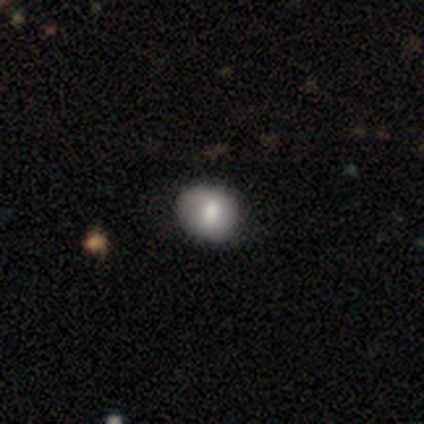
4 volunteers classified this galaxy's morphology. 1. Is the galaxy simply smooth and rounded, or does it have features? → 75% smooth, 25% star or artifact, 0% featured or disk.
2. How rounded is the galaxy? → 100% round, 0% in between, 0% cigar-shaped.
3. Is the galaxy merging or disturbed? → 67% minor disturbance, 33% none, 0% major disturbance, 0% merger.